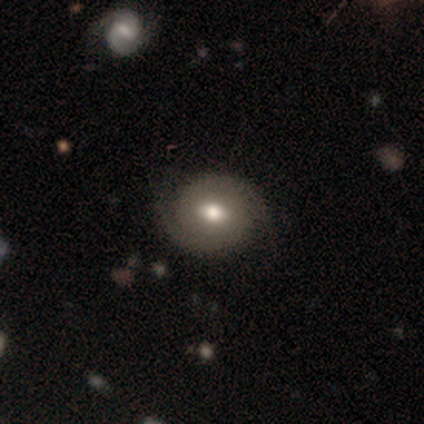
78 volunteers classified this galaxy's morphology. Overall: featured or disk (63%; smooth 35%). Edge-on disk: no (96%). Bar: weak (53%; no 40%). Spiral arms: yes (87%). Spiral arm count: 2 (90%). Spiral winding: tight (54%; medium 29%). Bulge size: moderate (77%). Merging: none (39%; minor disturbance 12%).